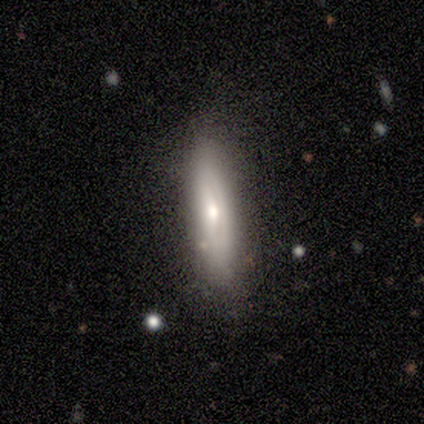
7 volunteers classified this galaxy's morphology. Smooth or featured? 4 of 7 (57%) said featured or disk. Edge-on disk? 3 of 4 (75%) said no. Bar? 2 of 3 (67%) said no. Spiral arms? 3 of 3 (100%) said no. Bulge size? 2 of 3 (67%) said small. Merging? 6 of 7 (86%) said none.